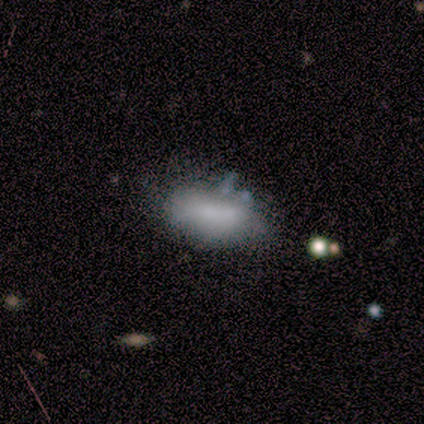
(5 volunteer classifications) Volunteers were most divided on "bulge size" (2-way tie): moderate: 50%, none: 50%, dominant: 0%, large: 0%, small: 0%. More confident: bar — no (100%); spiral arms — no (100%); edge-on disk — no (67%); smooth or featured — featured or disk (60%); merging — minor disturbance (60%).